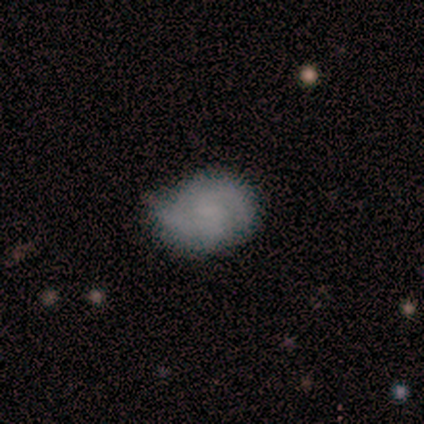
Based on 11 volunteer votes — smooth-or-featured: featured or disk: 55% | smooth: 36% | star or artifact: 9%
  disk-edge-on: no: 100% | yes: 0%
    bar: no: 83% | weak: 17% | strong: 0%
    has-spiral-arms: yes: 83% | no: 17%
      spiral-winding: loose: 60% | medium: 40% | tight: 0%
      spiral-arm-count: 2: 100% | 1: 0% | 3: 0% | 4: 0% | more than 4: 0% | can't tell: 0%
    bulge-size: none: 67% | moderate: 17% | small: 17% | dominant: 0% | large: 0%
  merging: none: 50% (tied) | minor disturbance: 50% (tied) | major disturbance: 0% | merger: 0%